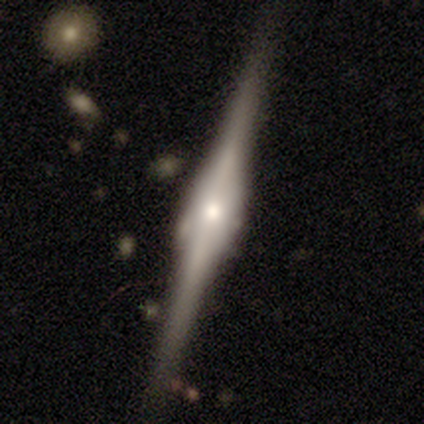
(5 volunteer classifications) Smooth or featured: featured or disk — 100%
Edge-on disk: yes — 100%
Edge-on bulge: rounded — 80% (boxy — 20%)
Merging: none — 80% (minor disturbance — 20%)